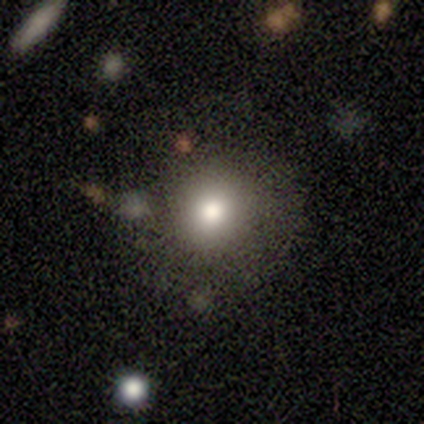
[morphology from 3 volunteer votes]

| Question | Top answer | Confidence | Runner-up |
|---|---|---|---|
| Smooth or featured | smooth | 67% | featured or disk (33%) |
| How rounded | round | 100% | — |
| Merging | none | 67% | merger (33%) |